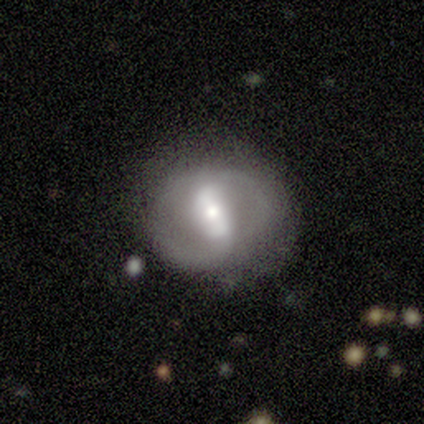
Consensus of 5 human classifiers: A featured or disk galaxy (60%) with a strong bar (33%, tied with weak and no), 2 (67%) medium (67%) spiral arms (100%) and a small central bulge (67%). Merging: none (75%).